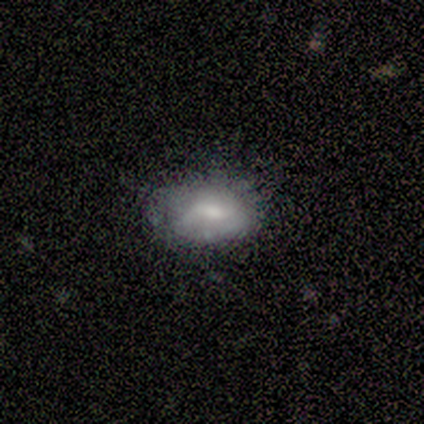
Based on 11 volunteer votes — This appears to be a smooth galaxy with no disk features (91%) that is in between round and cigar-shaped (100%). Merging: none (73%).